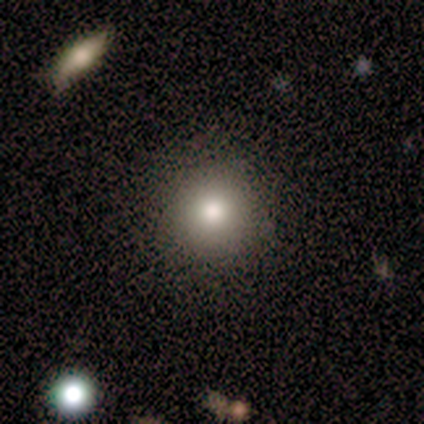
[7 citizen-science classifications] smooth-or-featured: smooth: 100% | featured or disk: 0% | star or artifact: 0%
  how-rounded: round: 100% | in between: 0% | cigar-shaped: 0%
  merging: none: 100% | minor disturbance: 0% | major disturbance: 0% | merger: 0%